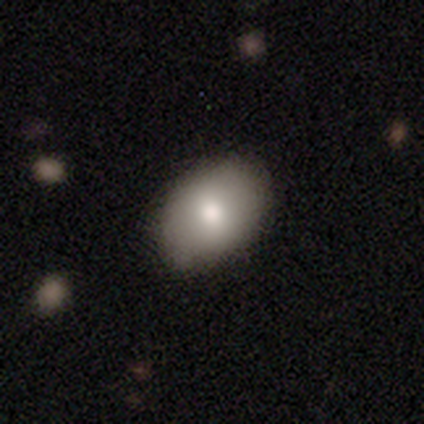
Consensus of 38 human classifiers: A smooth galaxy with no disk features (74%) that is in between round and cigar-shaped (86%).

Vote fractions:
- Smooth or featured? smooth: 74% / featured or disk: 18% / star or artifact: 8%
- How rounded? in between: 86% / round: 14% / cigar-shaped: 0%
- Merging? none: 77% / minor disturbance: 6% / merger: 3% / major disturbance: 0%